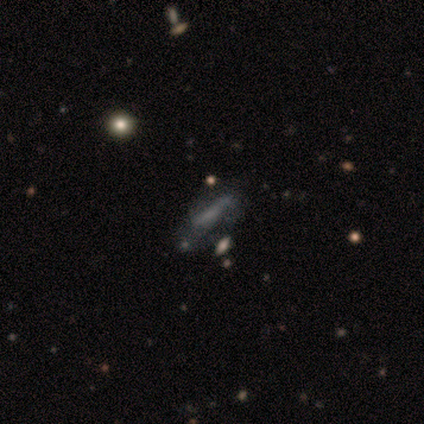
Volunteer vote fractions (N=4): smooth 50% (tied), featured or disk 50% (tied), star or artifact 0%. Down the decision tree: how rounded — in between (50%, tied with cigar-shaped); merging — none (50%).